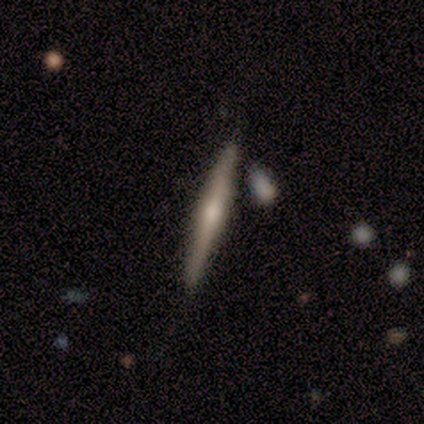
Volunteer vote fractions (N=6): This is clearly a featured or disk galaxy (83%). It is clearly viewed edge-on (100%). Edge-on bulge: clearly rounded (100%). Merging: clearly none (83%).